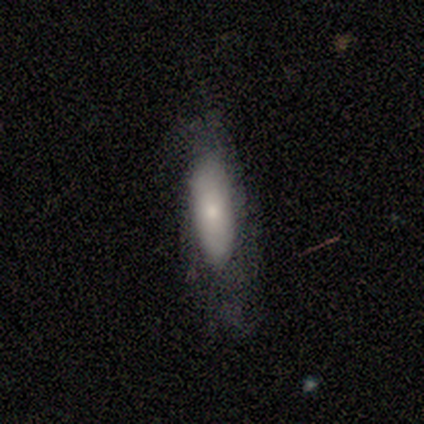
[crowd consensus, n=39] smooth 79%, featured or disk 15%, star or artifact 5%. Down the decision tree: how rounded — in between (58%); merging — none (54%).